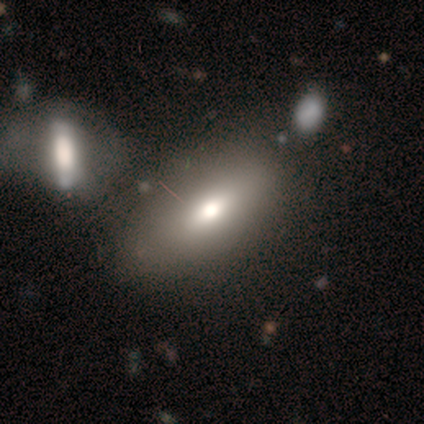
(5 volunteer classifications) Overall: star or artifact (60%; smooth 40%).